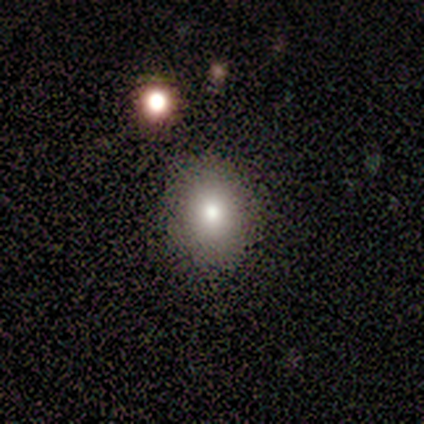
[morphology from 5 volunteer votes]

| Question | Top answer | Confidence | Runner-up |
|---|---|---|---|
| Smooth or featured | smooth | 100% | — |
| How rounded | round | 80% | in between (20%) |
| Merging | none | 100% | — |